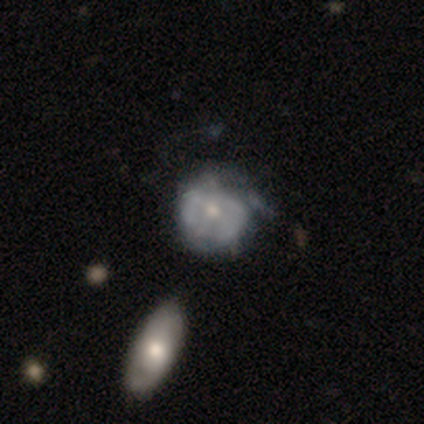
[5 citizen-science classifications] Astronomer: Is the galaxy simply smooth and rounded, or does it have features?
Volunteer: featured or disk — 60% (runner-up: smooth, 40%).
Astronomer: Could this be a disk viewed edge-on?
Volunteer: no — 100%.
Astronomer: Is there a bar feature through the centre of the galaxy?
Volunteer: no — 100%.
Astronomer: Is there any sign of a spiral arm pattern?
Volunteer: yes — 67%.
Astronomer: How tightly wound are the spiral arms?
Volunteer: tight — 100%.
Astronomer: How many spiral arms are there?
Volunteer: can't tell — 100%.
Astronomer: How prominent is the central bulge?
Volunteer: small — 67%.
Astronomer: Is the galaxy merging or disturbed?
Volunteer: minor disturbance — 40%, tied with major disturbance at 40%.